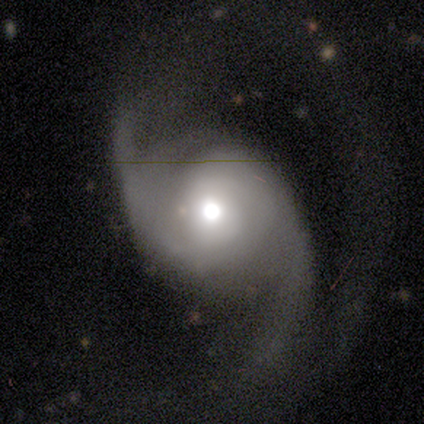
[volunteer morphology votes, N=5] smooth-or-featured: featured or disk: 100% | smooth: 0% | star or artifact: 0%
  disk-edge-on: no: 100% | yes: 0%
    bar: no: 100% | strong: 0% | weak: 0%
    has-spiral-arms: yes: 100% | no: 0%
      spiral-winding: medium: 40% (tied) | loose: 40% (tied) | tight: 20%
      spiral-arm-count: 2: 100% | 1: 0% | 3: 0% | 4: 0% | more than 4: 0% | can't tell: 0%
    bulge-size: moderate: 80% | small: 20% | dominant: 0% | large: 0% | none: 0%
  merging: none: 60% | minor disturbance: 40% | major disturbance: 0% | merger: 0%